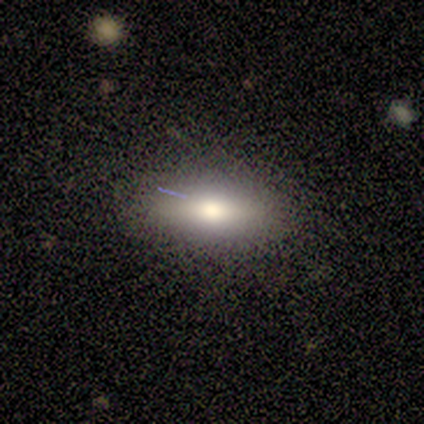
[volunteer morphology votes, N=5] Smooth or featured? smooth (80%)
How rounded? in between (100%)
Merging? none (80%)